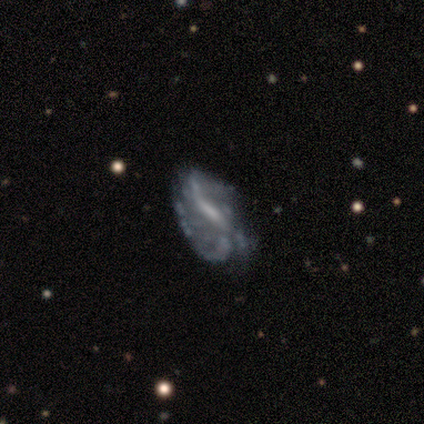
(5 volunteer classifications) smooth-or-featured: featured or disk: 100% | smooth: 0% | star or artifact: 0%
  disk-edge-on: no: 100% | yes: 0%
    bar: strong: 60% | weak: 40% | no: 0%
    has-spiral-arms: yes: 80% | no: 20%
      spiral-winding: medium: 75% | loose: 25% | tight: 0%
      spiral-arm-count: 3: 50% | 2: 25% | can't tell: 25% | 1: 0% | 4: 0% | more than 4: 0%
    bulge-size: moderate: 40% (tied) | small: 40% (tied) | none: 20% | dominant: 0% | large: 0%
  merging: minor disturbance: 60% | none: 40% | major disturbance: 0% | merger: 0%